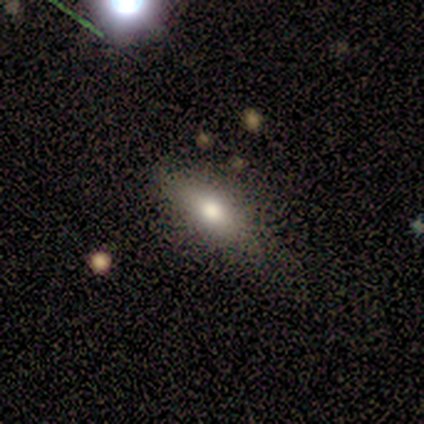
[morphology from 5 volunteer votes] Smooth or featured: smooth — 40% (tied with featured or disk — 40%)
How rounded: in between — 100%
Merging: none — 50% (tied with minor disturbance — 50%)